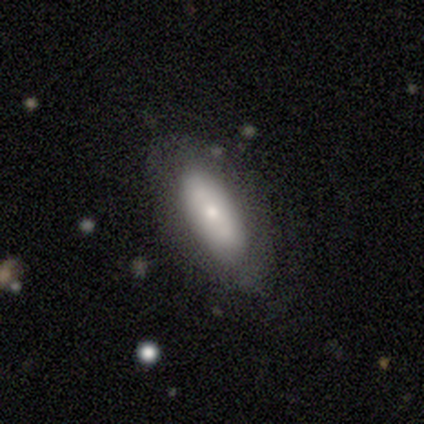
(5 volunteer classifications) Volunteers were most divided on "merging": none: 60%, minor disturbance: 20%, major disturbance: 20%, merger: 0%. More confident: how rounded — in between (100%); smooth or featured — smooth (80%).